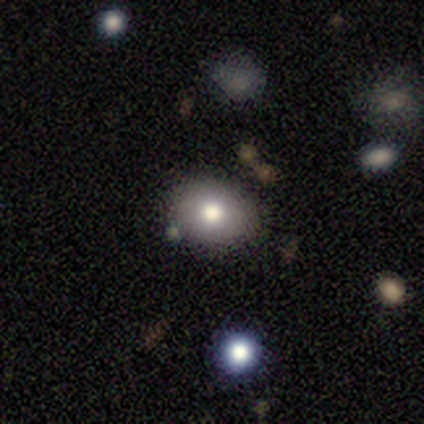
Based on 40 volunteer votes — A smooth galaxy with no disk features (82%) that is round (52%). Merging: none (84%).